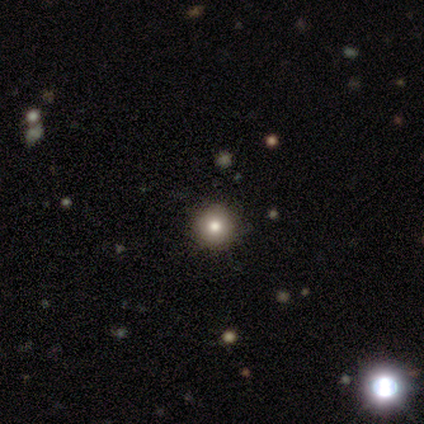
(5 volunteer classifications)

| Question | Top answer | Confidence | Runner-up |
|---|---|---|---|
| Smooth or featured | smooth | 80% | star or artifact (20%) |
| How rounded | round | 100% | — |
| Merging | none | 100% | — |